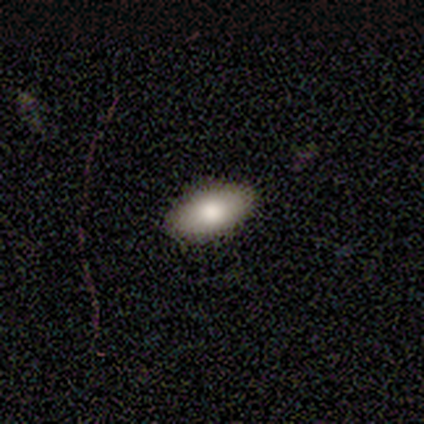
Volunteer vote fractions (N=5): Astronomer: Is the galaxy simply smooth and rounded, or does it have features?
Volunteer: smooth — 100%.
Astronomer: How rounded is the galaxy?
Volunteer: in between — 100%.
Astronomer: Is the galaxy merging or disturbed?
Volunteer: none — 100%.